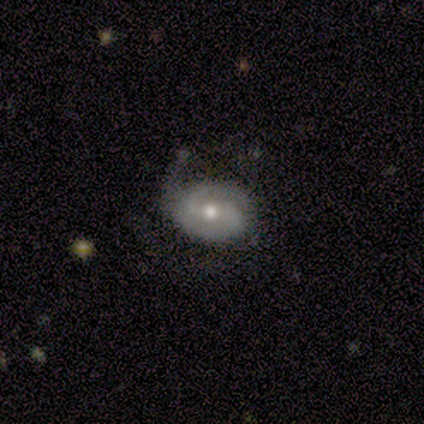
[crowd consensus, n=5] smooth-or-featured: featured or disk: 80% | smooth: 20% | star or artifact: 0%
  disk-edge-on: no: 100% | yes: 0%
    bar: weak: 75% | no: 25% | strong: 0%
    has-spiral-arms: yes: 75% | no: 25%
      spiral-winding: medium: 67% | loose: 33% | tight: 0%
      spiral-arm-count: 2: 100% | 1: 0% | 3: 0% | 4: 0% | more than 4: 0% | can't tell: 0%
    bulge-size: moderate: 50% (tied) | small: 50% (tied) | dominant: 0% | large: 0% | none: 0%
  merging: none: 40% (tied) | minor disturbance: 40% (tied) | major disturbance: 20% | merger: 0%